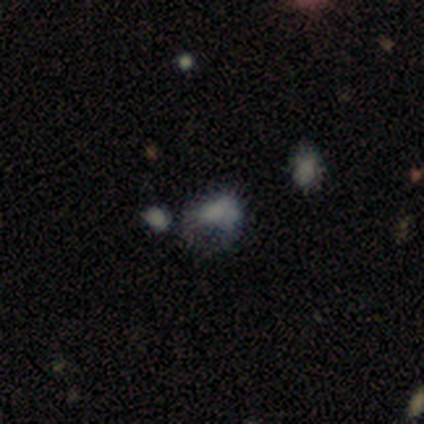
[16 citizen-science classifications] Smooth or featured? featured or disk (44%)
Edge-on disk? no (100%)
Bar? no (100%)
Spiral arms? no (100%)
Bulge size? none (71%)
Merging? major disturbance (55%)